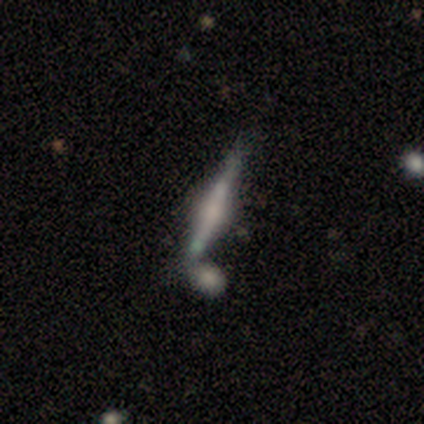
Smooth or featured? 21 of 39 (54%) said featured or disk. Edge-on disk? 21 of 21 (100%) said yes. Edge-on bulge? 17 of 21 (81%) said rounded. Merging? 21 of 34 (62%) said none.